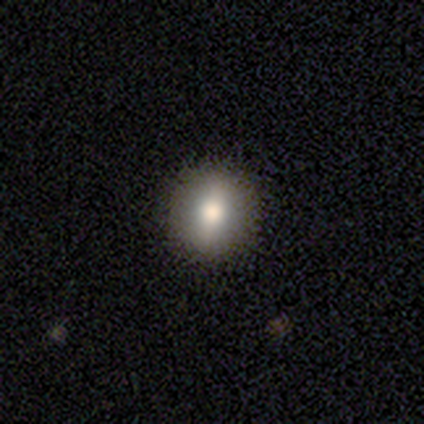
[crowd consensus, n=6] A smooth galaxy with no disk features (100%) that is round (83%).

Vote fractions:
- Smooth or featured? smooth: 100% / featured or disk: 0% / star or artifact: 0%
- How rounded? round: 83% / in between: 17% / cigar-shaped: 0%
- Merging? none: 100% / minor disturbance: 0% / major disturbance: 0% / merger: 0%